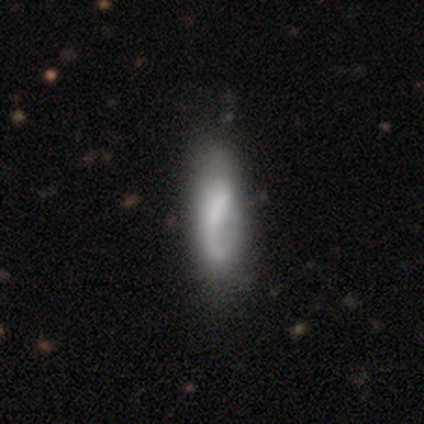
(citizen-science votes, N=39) Volunteers were most divided on "spiral winding": medium: 50%, loose: 43%, tight: 7%. Remaining: edge-on disk — no (96%); spiral arm count — 1 (64%); smooth or featured — featured or disk (62%); spiral arms — yes (61%); bulge size — none (43%); bar — strong (39%); merging — none (29%).